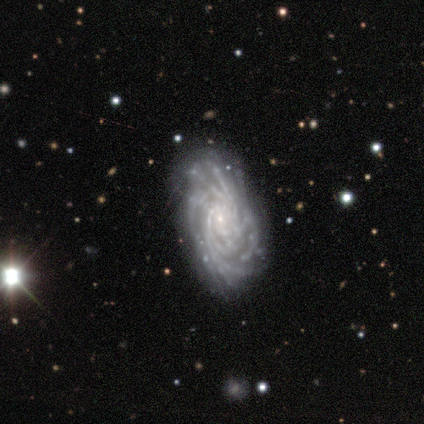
Smooth or featured: featured or disk — 88% (star or artifact — 12%)
Edge-on disk: no — 86% (yes — 14%)
Bar: no — 67% (weak — 33%)
Spiral arms: yes — 100%
Spiral winding: tight — 83% (loose — 17%)
Spiral arm count: more than 4 — 83% (4 — 17%)
Bulge size: small — 50% (dominant — 17%)
Merging: none — 43% (tied with minor disturbance — 43%)